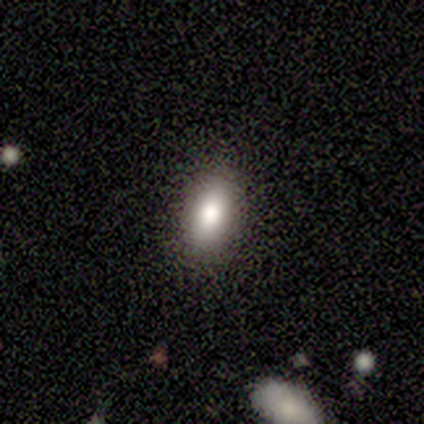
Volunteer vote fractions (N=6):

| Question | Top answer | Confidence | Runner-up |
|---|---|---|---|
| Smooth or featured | smooth | 50% | featured or disk (33%) |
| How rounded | in between | 100% | — |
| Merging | none | 100% | — |